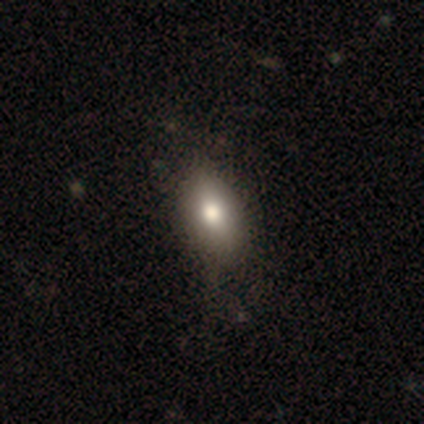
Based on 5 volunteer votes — A smooth galaxy with no disk features (80%) that is in between round and cigar-shaped (50%).

Vote fractions:
- Smooth or featured? smooth: 80% / star or artifact: 20% / featured or disk: 0%
- How rounded? in between: 50% / round: 25% / cigar-shaped: 25%
- Merging? none: 75% / major disturbance: 25% / minor disturbance: 0% / merger: 0%